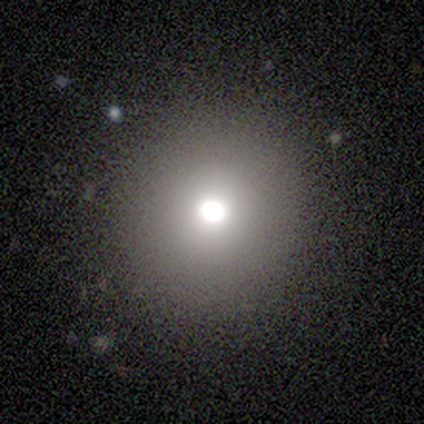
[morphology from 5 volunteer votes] This appears to be a smooth galaxy with no disk features (100%) that is round (100%). Merging: none (100%).